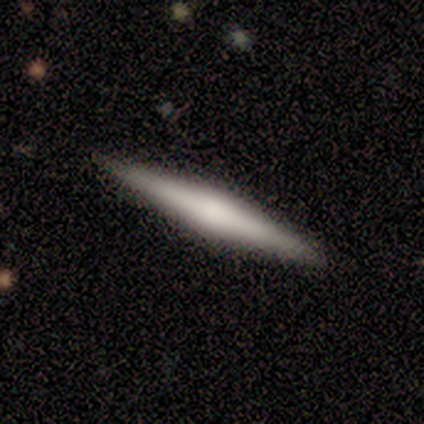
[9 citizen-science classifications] Volunteers were most divided on "smooth or featured": featured or disk: 56%, smooth: 33%, star or artifact: 11%. More confident: edge-on disk — yes (100%); merging — none (88%); edge-on bulge — rounded (80%).